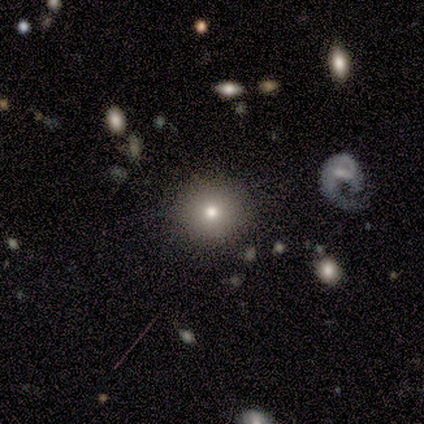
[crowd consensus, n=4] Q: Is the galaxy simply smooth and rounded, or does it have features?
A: smooth — 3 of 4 (75%).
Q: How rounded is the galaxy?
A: round — 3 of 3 (100%).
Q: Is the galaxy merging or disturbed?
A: none — 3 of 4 (75%).